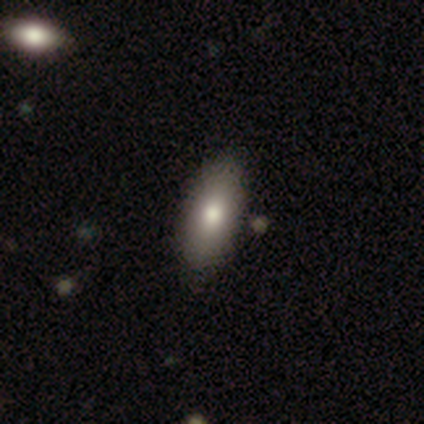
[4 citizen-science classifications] smooth 75%, featured or disk 25%, star or artifact 0%. Down the decision tree: how rounded — in between (67%); merging — none (75%).